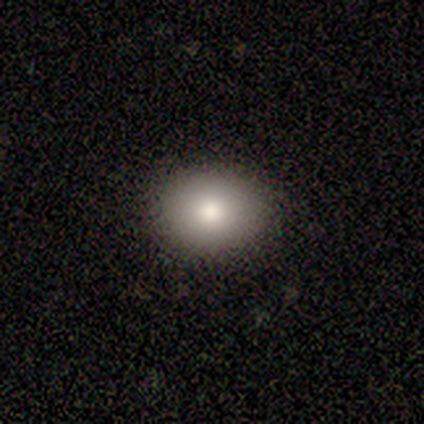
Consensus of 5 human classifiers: This appears to be a smooth galaxy with no disk features (100%) that is in between round and cigar-shaped (80%). Merging: none (100%).